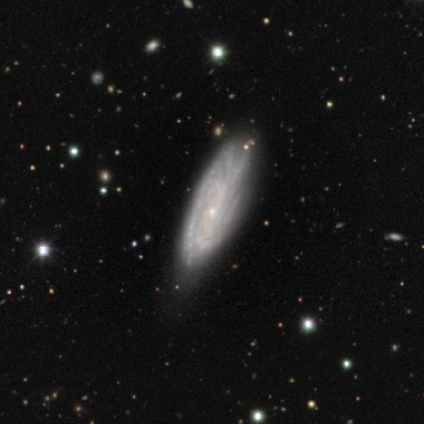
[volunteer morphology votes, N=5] Volunteers were most divided on "spiral arm count" (3-way tie): 2: 33%, 3: 33%, can't tell: 33%, 1: 0%, 4: 0%, more than 4: 0%. More confident: bar — no (100%); spiral arms — yes (100%); spiral winding — medium (100%); smooth or featured — featured or disk (80%); edge-on disk — no (75%); merging — none (75%); bulge size — small (67%).